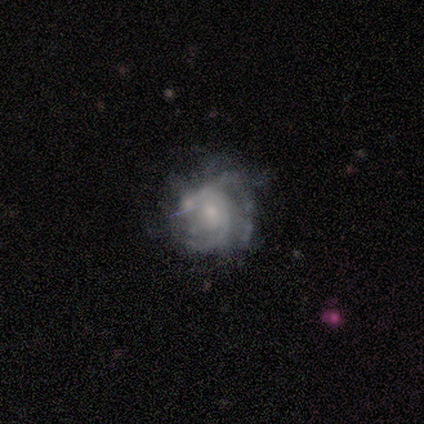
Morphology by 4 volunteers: Smooth or featured? 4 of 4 (100%) said featured or disk. Edge-on disk? 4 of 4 (100%) said no. Bar? 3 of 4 (75%) said no. Spiral arms? 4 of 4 (100%) said yes. Spiral winding? 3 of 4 (75%) said tight. Spiral arm count? 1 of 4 (25%, tied with 4, more than 4 and can't tell) said 3. Bulge size? 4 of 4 (100%) said small. Merging? 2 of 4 (50%) said none.